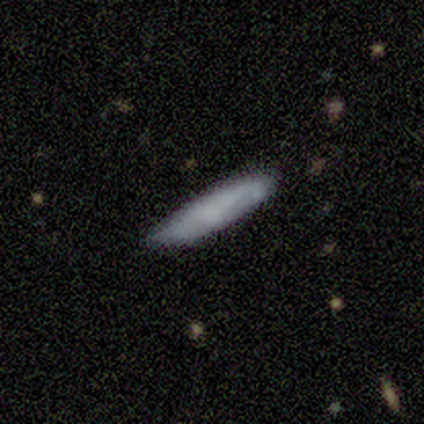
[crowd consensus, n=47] Q: Smooth or featured?
A: smooth (83%); runner-up: featured or disk (13%)
Q: How rounded?
A: cigar-shaped (87%); runner-up: in between (10%)
Q: Merging?
A: none (73%); runner-up: minor disturbance (24%)